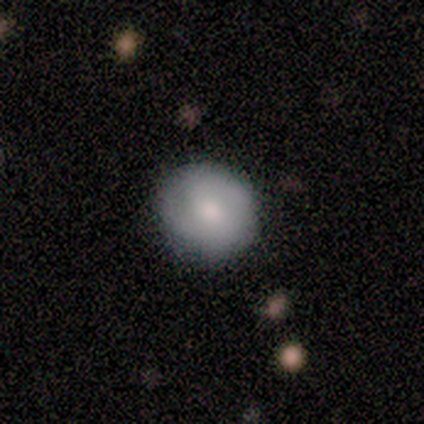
Volunteers were most divided on "smooth or featured": smooth: 70%, featured or disk: 30%, star or artifact: 0%. More confident: merging — none (100%); how rounded — round (71%).